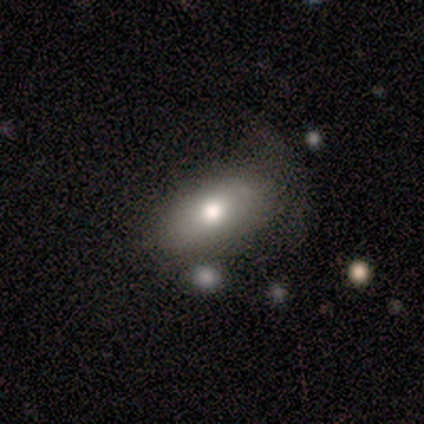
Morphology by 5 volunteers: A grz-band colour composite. It shows a smooth galaxy with no disk features (80%) that is in between round and cigar-shaped (100%). Merging: none (60%).